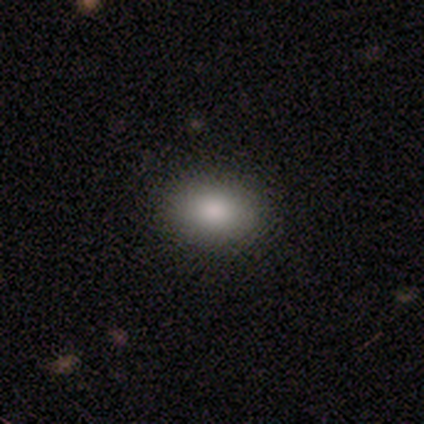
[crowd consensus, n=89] A smooth galaxy with no disk features (89%) that is in between round and cigar-shaped (78%). Merging: none (87%).